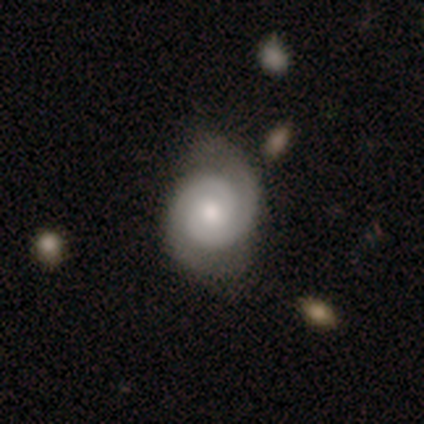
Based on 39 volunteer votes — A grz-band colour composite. It shows a featured or disk galaxy (87%) with no bar (58%), 2 (91%) tight (70%) spiral arms (100%) and a moderate central bulge (64%). Merging: none (68%).